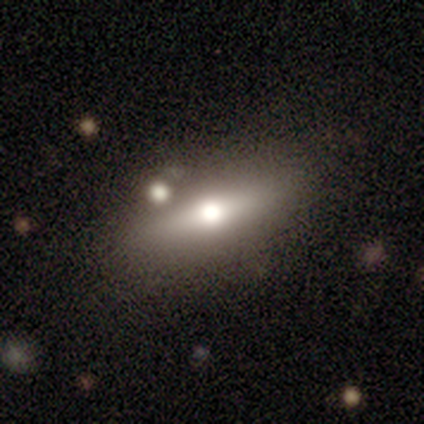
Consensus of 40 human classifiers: This is possibly a smooth galaxy (55%). How rounded: possibly in between (55%). Merging: possibly none (59%).